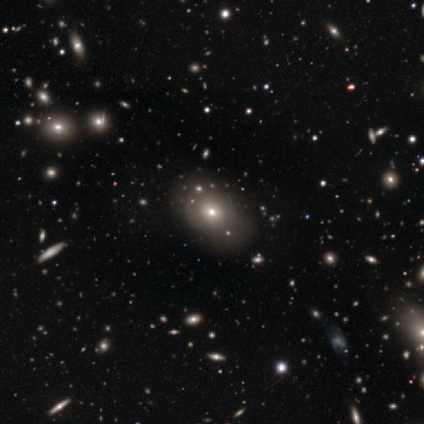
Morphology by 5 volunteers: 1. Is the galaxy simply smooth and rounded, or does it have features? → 60% star or artifact, 40% smooth, 0% featured or disk.